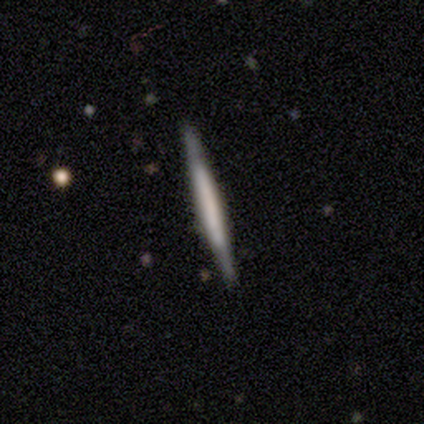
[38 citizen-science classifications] Volunteers were most divided on "smooth or featured": featured or disk: 68%, smooth: 32%, star or artifact: 0%. More confident: edge-on disk — yes (96%); merging — none (92%); edge-on bulge — none (72%).